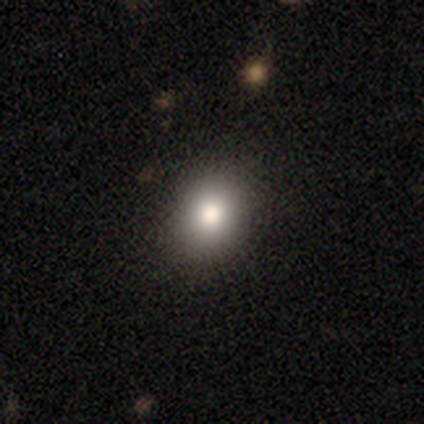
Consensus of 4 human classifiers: Overall: star or artifact (50%; smooth 25%).